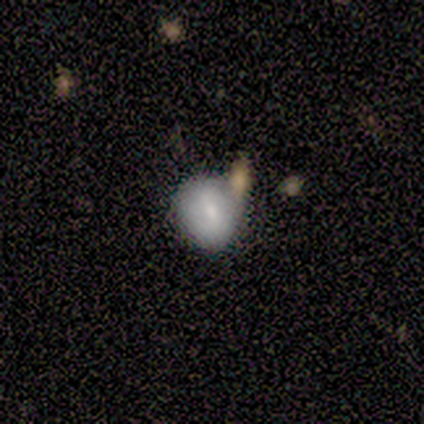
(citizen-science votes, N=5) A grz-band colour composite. It shows a smooth galaxy with no disk features (80%) that is round (75%). Merging: none (100%).